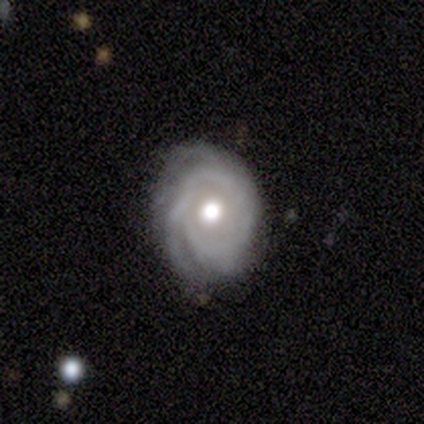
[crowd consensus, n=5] This is clearly a featured or disk galaxy (100%). It is clearly not viewed edge-on (100%). Bar: clearly no (100%). Spiral arm pattern: clearly yes (100%). Spiral arm count: marginally 2 (40%). Spiral winding: clearly tight (100%). Central bulge: clearly moderate (100%). Merging: clearly none (80%).